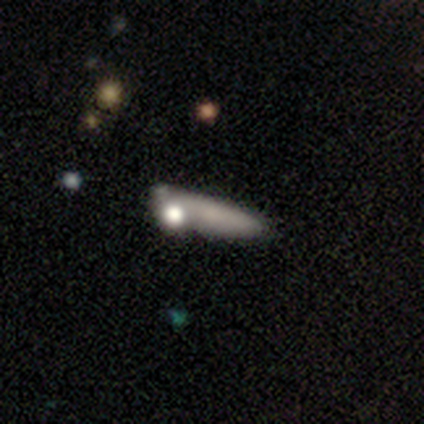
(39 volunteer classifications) smooth-or-featured: smooth: 59% | featured or disk: 31% | star or artifact: 10%
  how-rounded: cigar-shaped: 61% | in between: 35% | round: 4%
  merging: none: 54% | merger: 26% | minor disturbance: 14% | major disturbance: 6%